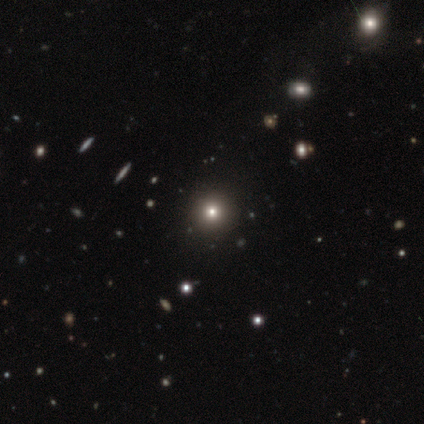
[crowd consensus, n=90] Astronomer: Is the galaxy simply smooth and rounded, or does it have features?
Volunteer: smooth — 51% (runner-up: star or artifact, 44%).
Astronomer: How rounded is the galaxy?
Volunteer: round — 96%.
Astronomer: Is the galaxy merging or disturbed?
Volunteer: none — 96%.